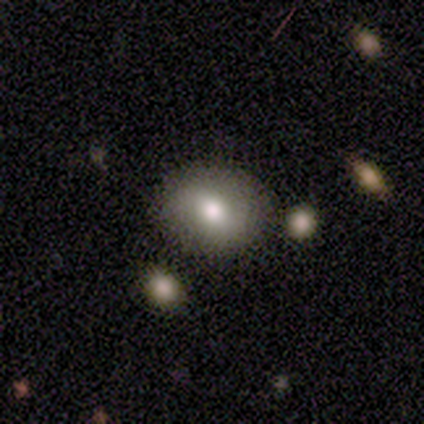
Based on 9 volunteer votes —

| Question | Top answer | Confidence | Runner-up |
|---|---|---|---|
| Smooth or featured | smooth | 67% | featured or disk (33%) |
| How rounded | round | 50% | tied: in between (50%) |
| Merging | none | 78% | minor disturbance (11%) |